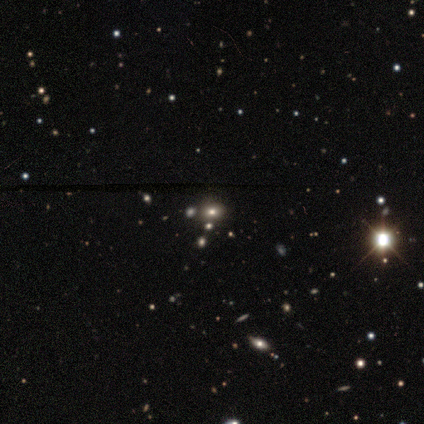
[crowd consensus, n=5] A smooth galaxy with no disk features (40%, tied with star or artifact) that is round (50%, tied with in between). Merging: none (67%).